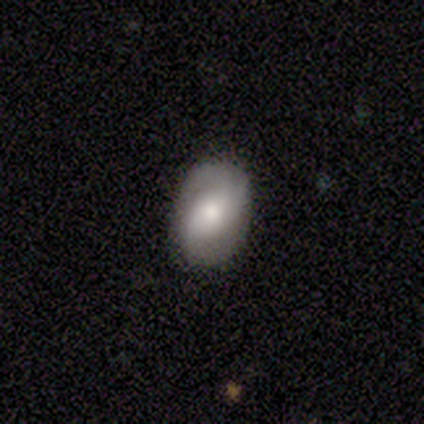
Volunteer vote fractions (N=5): A smooth galaxy with no disk features (80%) that is in between round and cigar-shaped (75%).

Vote fractions:
- Smooth or featured? smooth: 80% / featured or disk: 20% / star or artifact: 0%
- How rounded? in between: 75% / round: 25% / cigar-shaped: 0%
- Merging? none: 100% / minor disturbance: 0% / major disturbance: 0% / merger: 0%